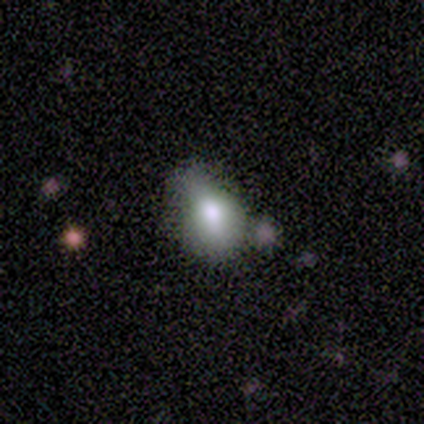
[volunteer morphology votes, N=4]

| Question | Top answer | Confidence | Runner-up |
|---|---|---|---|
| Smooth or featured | smooth | 100% | — |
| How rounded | round | 50% | tied: in between (50%) |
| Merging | none | 50% | tied: minor disturbance (50%) |